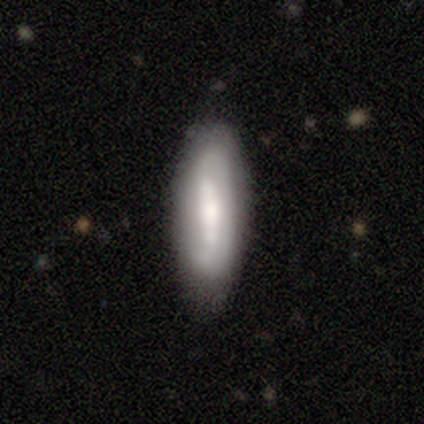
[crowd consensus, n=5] Smooth or featured? 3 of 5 (60%) said featured or disk. Edge-on disk? 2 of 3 (67%) said no. Bar? 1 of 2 (50%, tied with no) said weak. Spiral arms? 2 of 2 (100%) said yes. Spiral winding? 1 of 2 (50%, tied with medium) said tight. Spiral arm count? 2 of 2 (100%) said 2. Bulge size? 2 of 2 (100%) said moderate. Merging? 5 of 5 (100%) said none.